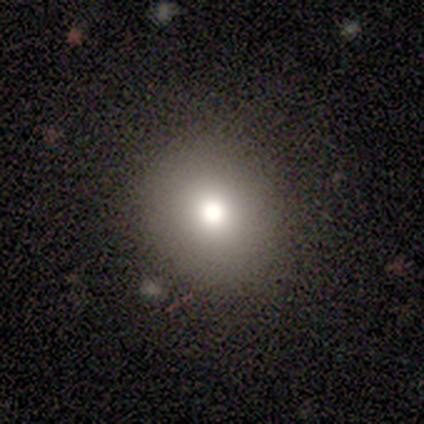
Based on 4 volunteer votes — smooth_or_featured: smooth (p=0.75) [alt: featured or disk p=0.25]
how_rounded: round (p=0.67) [alt: in between p=0.33]
merging: none (p=1.00)